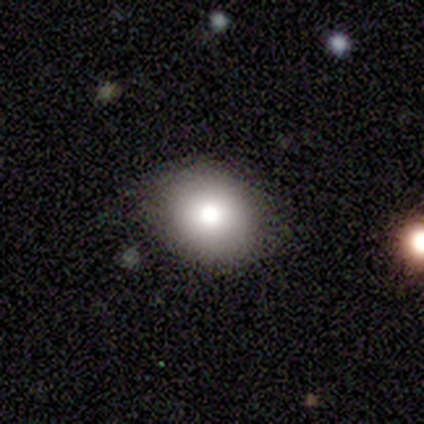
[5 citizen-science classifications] smooth_or_featured: smooth (p=1.00)
how_rounded: round (p=0.60) [alt: in between p=0.40]
merging: none (p=0.80) [alt: major disturbance p=0.20]